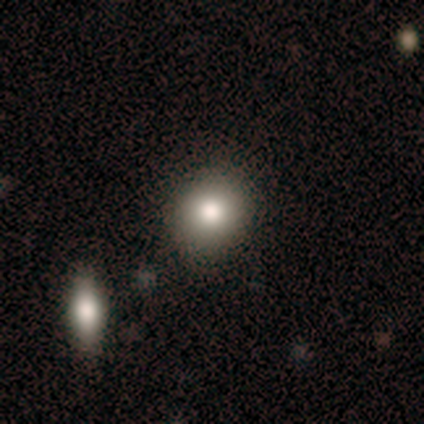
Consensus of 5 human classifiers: Smooth or featured? 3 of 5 (60%) said smooth. How rounded? 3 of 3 (100%) said round. Merging? 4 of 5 (80%) said none.